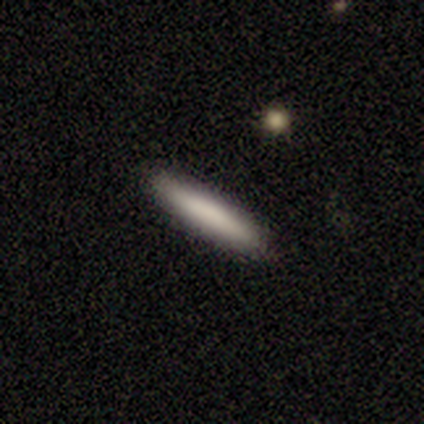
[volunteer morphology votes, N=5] Smooth or featured? smooth (80%)
How rounded? cigar-shaped (100%)
Merging? none (100%)